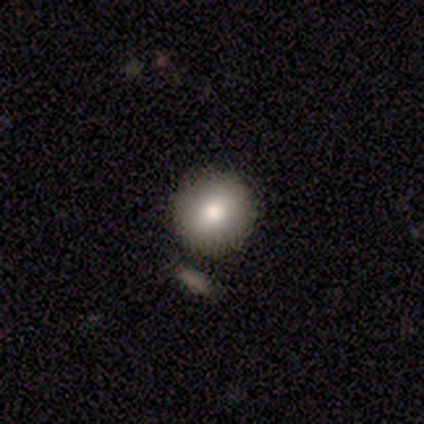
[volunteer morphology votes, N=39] smooth 74%, featured or disk 15%, star or artifact 10%. Down the decision tree: how rounded — round (97%); merging — none (80%).